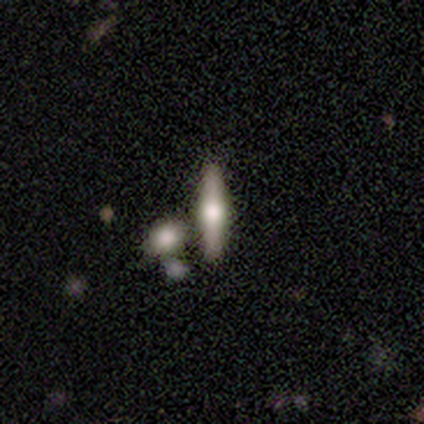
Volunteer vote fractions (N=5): Q: Smooth or featured?
A: featured or disk (60%); runner-up: smooth (40%)
Q: Edge-on disk?
A: yes (100%)
Q: Edge-on bulge?
A: rounded (100%)
Q: Merging?
A: none (80%); runner-up: merger (20%)